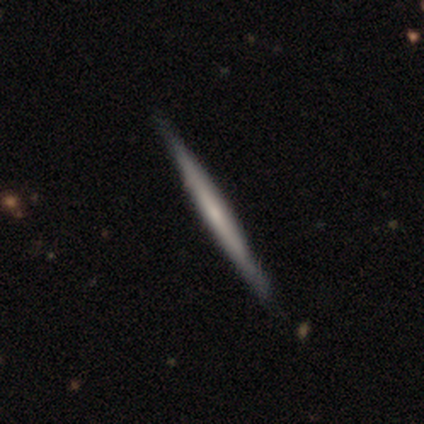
Smooth or featured?
  - featured or disk: 60% *
  - smooth: 40%
  - star or artifact: 0%
Edge-on disk?
  - yes: 100% *
  - no: 0%
Edge-on bulge?
  - rounded: 67% *
  - none: 33%
  - boxy: 0%
Merging?
  - none: 100% *
  - minor disturbance: 0%
  - major disturbance: 0%
  - merger: 0%